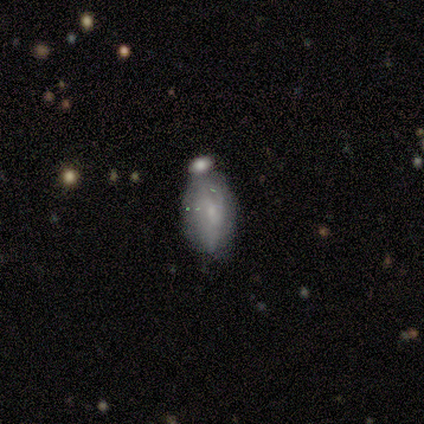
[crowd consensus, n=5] This appears to be a smooth galaxy with no disk features (40%, tied with featured or disk) that is in between round and cigar-shaped (100%). Merging: none (50%).